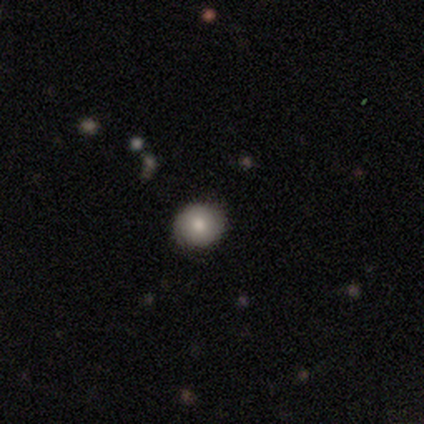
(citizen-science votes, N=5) smooth 60%, featured or disk 20%, star or artifact 20%. Down the decision tree: how rounded — round (100%); merging — none (100%).